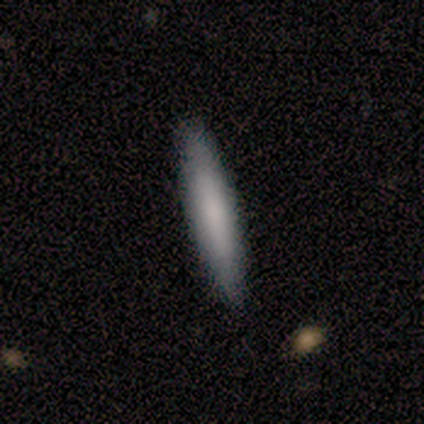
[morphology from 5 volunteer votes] Q: Smooth or featured?
A: smooth (80%); runner-up: featured or disk (20%)
Q: How rounded?
A: cigar-shaped (75%); runner-up: in between (25%)
Q: Merging?
A: none (80%); runner-up: minor disturbance (20%)